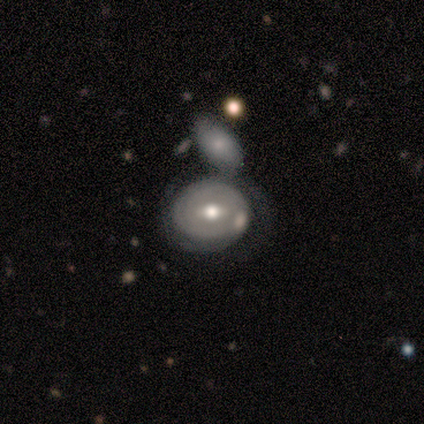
A featured or disk galaxy (60%) with a weak bar (100%), 2 (100%) tight (50%, tied with loose) spiral arms (67%) and a large central bulge (33%, tied with moderate and small).

Vote fractions:
- Smooth or featured? featured or disk: 60% / smooth: 40% / star or artifact: 0%
- Edge-on disk? no: 100% / yes: 0%
- Bar? weak: 100% / strong: 0% / no: 0%
- Spiral arms? yes: 67% / no: 33%
- Spiral winding? tight: 50% (tied) / loose: 50% (tied) / medium: 0%
- Spiral arm count? 2: 100% / 1: 0% / 3: 0% / 4: 0% / more than 4: 0% / can't tell: 0%
- Bulge size? large: 33% (tied) / moderate: 33% (tied) / small: 33% (tied) / dominant: 0% / none: 0%
- Merging? merger: 100% / none: 0% / minor disturbance: 0% / major disturbance: 0%